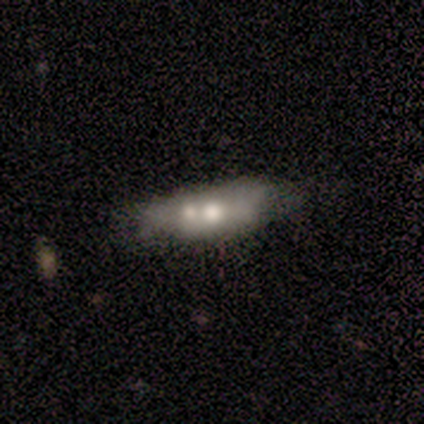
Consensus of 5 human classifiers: Smooth or featured? 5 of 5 (100%) said featured or disk. Edge-on disk? 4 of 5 (80%) said no. Bar? 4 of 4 (100%) said no. Spiral arms? 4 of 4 (100%) said no. Bulge size? 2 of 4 (50%) said large. Merging? 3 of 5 (60%) said merger.